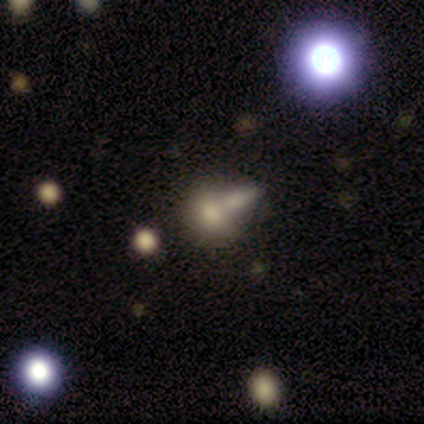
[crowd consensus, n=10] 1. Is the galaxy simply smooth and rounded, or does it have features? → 80% smooth, 20% star or artifact, 0% featured or disk.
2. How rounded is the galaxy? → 62% round, 25% in between, 12% cigar-shaped.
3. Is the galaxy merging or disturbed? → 62% merger, 38% none, 0% minor disturbance, 0% major disturbance.